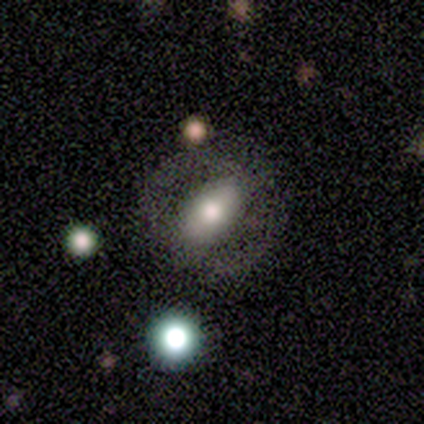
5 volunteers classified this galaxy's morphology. A featured or disk galaxy (80%) with no bar (50%), no spiral arms (75%) and a large central bulge (75%). Merging: none (60%).